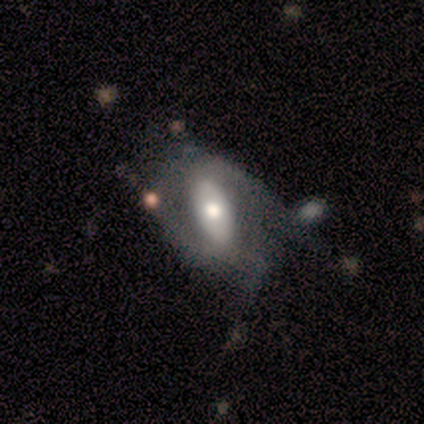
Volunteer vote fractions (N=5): Smooth or featured? 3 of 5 (60%) said smooth. How rounded? 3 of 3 (100%) said in between. Merging? 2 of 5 (40%, tied with major disturbance) said none.